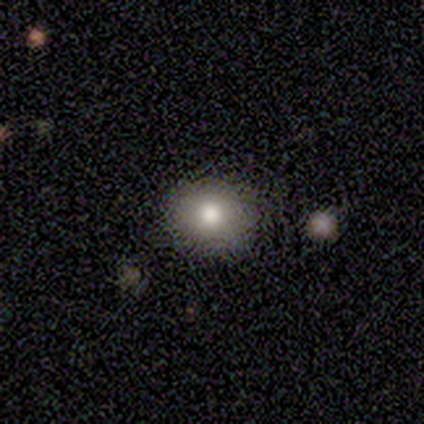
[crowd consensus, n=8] This is clearly a smooth galaxy (100%). How rounded: clearly round (88%). Merging: clearly none (100%).